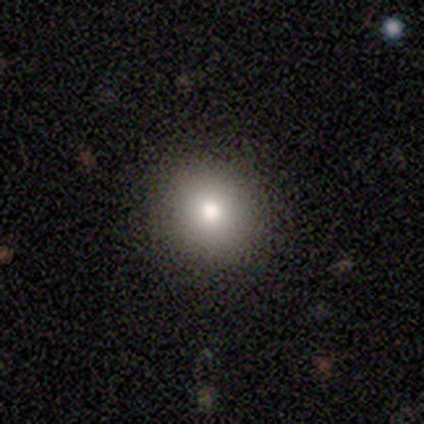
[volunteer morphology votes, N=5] Overall: smooth (80%). How rounded: round (100%). Merging: none (100%).